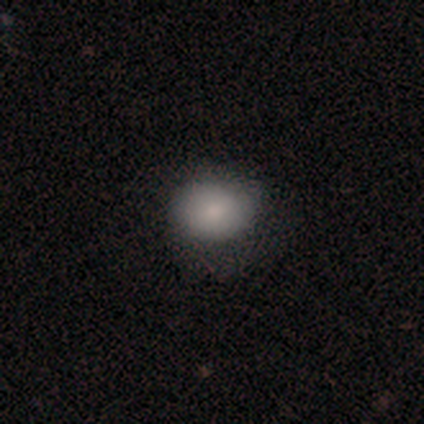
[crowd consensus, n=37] A smooth galaxy with no disk features (81%) that is in between round and cigar-shaped (53%). Merging: none (76%).